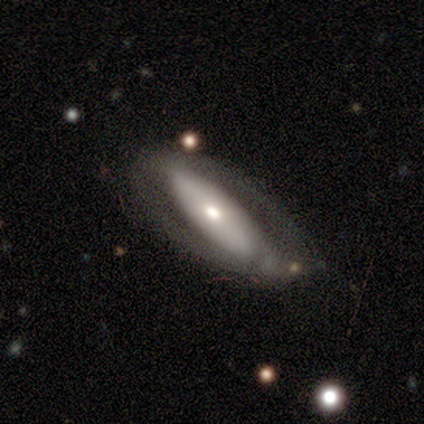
Overall: smooth (60%; featured or disk 40%). How rounded: in between (67%; cigar-shaped 33%). Merging: none (60%; major disturbance 20%).